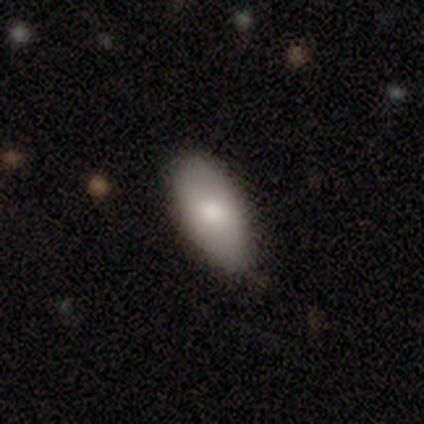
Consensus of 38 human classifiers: smooth-or-featured: smooth: 79% | featured or disk: 13% | star or artifact: 8%
  how-rounded: in between: 93% | round: 3% | cigar-shaped: 3%
  merging: none: 86% | minor disturbance: 14% | major disturbance: 0% | merger: 0%